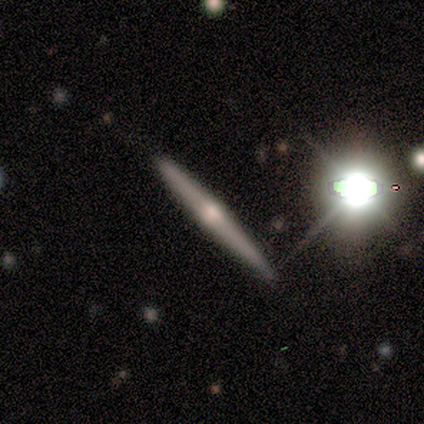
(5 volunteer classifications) Q: Smooth or featured?
A: featured or disk (60%); runner-up: star or artifact (40%)
Q: Edge-on disk?
A: yes (67%); runner-up: no (33%)
Q: Edge-on bulge?
A: rounded (100%)
Q: Merging?
A: none (67%); runner-up: minor disturbance (33%)